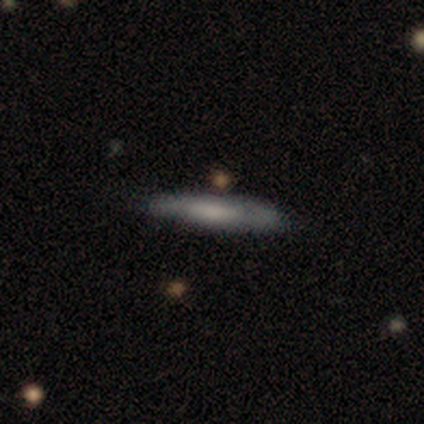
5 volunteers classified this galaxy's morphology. Smooth or featured? 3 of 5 (60%) said smooth. How rounded? 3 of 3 (100%) said cigar-shaped. Merging? 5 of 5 (100%) said none.